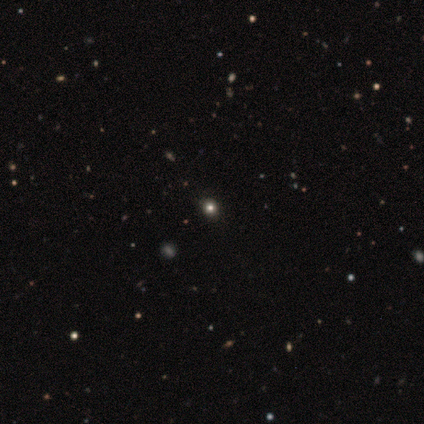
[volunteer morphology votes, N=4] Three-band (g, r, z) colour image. It shows a smooth galaxy with no disk features (50%, tied with star or artifact) that is round (100%). Merging: none (100%).